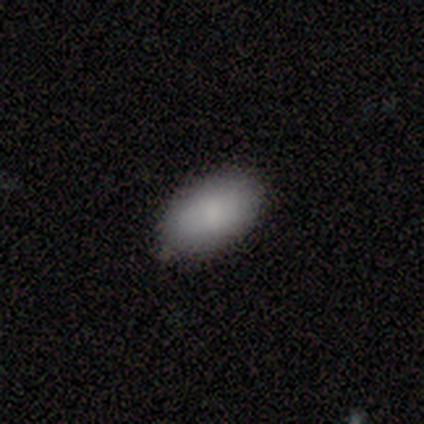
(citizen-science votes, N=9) smooth_or_featured: smooth (p=1.00)
how_rounded: in between (p=1.00)
merging: none (p=0.89) [alt: minor disturbance p=0.11]